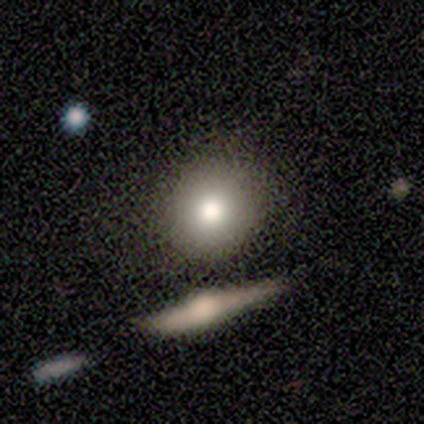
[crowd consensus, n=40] smooth 80%, featured or disk 12%, star or artifact 8%. Down the decision tree: how rounded — round (88%); merging — none (76%).